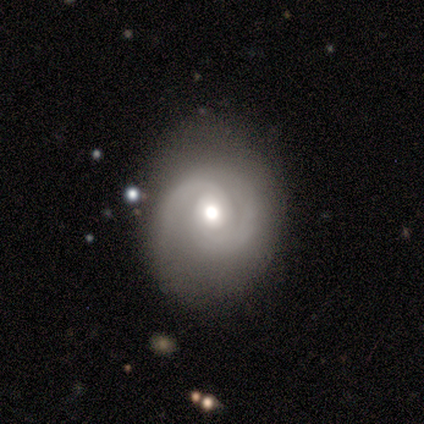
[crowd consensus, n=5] A featured or disk galaxy (80%) with a weak bar (50%, tied with no), 2 (100%) tight (50%) spiral arms (100%) and a moderate central bulge (100%).

Vote fractions:
- Smooth or featured? featured or disk: 80% / smooth: 20% / star or artifact: 0%
- Edge-on disk? no: 100% / yes: 0%
- Bar? weak: 50% (tied) / no: 50% (tied) / strong: 0%
- Spiral arms? yes: 100% / no: 0%
- Spiral winding? tight: 50% / medium: 25% / loose: 25%
- Spiral arm count? 2: 100% / 1: 0% / 3: 0% / 4: 0% / more than 4: 0% / can't tell: 0%
- Bulge size? moderate: 100% / dominant: 0% / large: 0% / small: 0% / none: 0%
- Merging? none: 40% (tied) / minor disturbance: 40% (tied) / major disturbance: 20% / merger: 0%